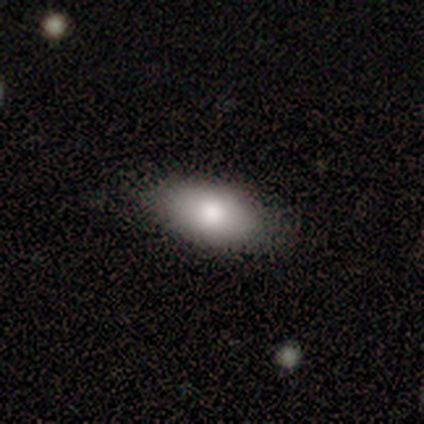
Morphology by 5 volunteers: Smooth or featured? 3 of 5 (60%) said featured or disk. Edge-on disk? 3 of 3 (100%) said no. Bar? 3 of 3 (100%) said no. Spiral arms? 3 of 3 (100%) said no. Bulge size? 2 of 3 (67%) said large. Merging? 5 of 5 (100%) said none.